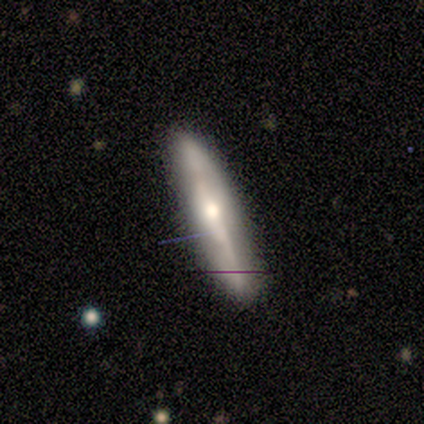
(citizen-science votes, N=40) featured or disk 65%, smooth 30%, star or artifact 5%. Down the decision tree: edge-on disk — yes (88%); edge-on bulge — rounded (78%); merging — none (87%).